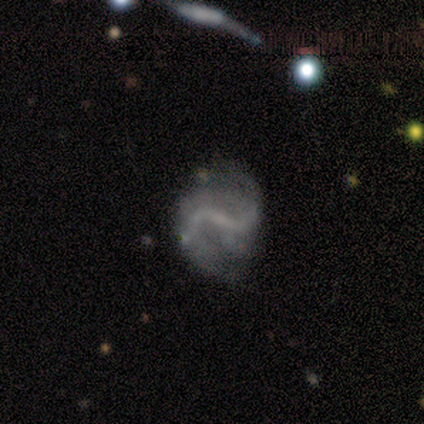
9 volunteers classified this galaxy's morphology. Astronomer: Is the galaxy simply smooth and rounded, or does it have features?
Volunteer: featured or disk — 100%.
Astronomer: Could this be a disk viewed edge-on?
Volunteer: no — 100%.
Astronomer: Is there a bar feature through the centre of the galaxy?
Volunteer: weak — 56% (runner-up: strong, 44%).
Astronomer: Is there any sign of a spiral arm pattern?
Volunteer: yes — 78%.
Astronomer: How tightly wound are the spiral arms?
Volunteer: loose — 100%.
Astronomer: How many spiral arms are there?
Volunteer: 2 — 86%.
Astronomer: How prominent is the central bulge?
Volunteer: none — 67%.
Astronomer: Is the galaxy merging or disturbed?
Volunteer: none — 78%.